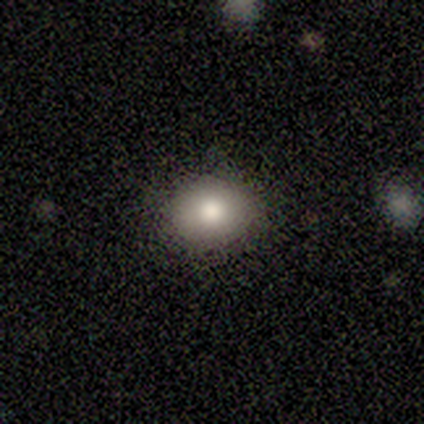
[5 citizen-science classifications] This appears to be a smooth galaxy with no disk features (100%) that is round (60%). Merging: none (100%).